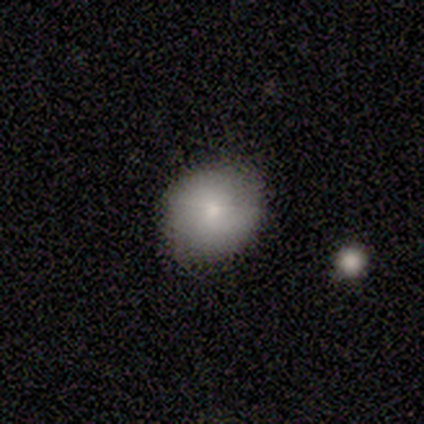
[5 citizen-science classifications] Q: Smooth or featured?
A: smooth (100%)
Q: How rounded?
A: round (100%)
Q: Merging?
A: none (100%)